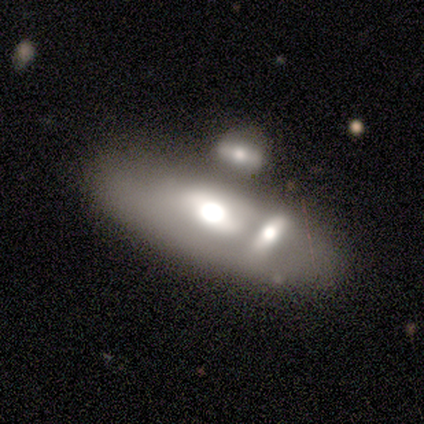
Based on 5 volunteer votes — Smooth or featured? 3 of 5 (60%) said featured or disk. Edge-on disk? 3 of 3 (100%) said yes. Edge-on bulge? 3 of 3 (100%) said rounded. Merging? 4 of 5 (80%) said none.